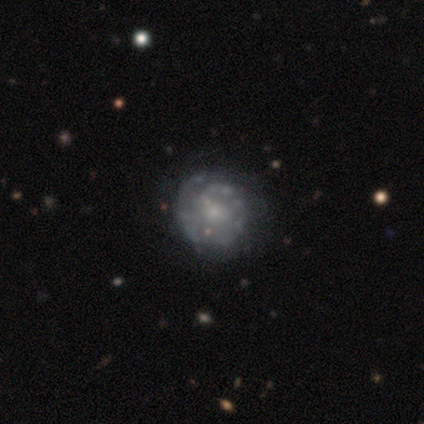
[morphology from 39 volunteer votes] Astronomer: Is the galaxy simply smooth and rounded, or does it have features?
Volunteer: featured or disk — 72%.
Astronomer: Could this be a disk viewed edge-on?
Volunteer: no — 96%.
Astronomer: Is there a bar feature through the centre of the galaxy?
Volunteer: no — 85%.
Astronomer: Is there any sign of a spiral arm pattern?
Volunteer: no — 59% (runner-up: yes, 41%).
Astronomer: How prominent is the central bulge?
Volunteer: small — 63%.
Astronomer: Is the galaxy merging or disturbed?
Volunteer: none — 69%.